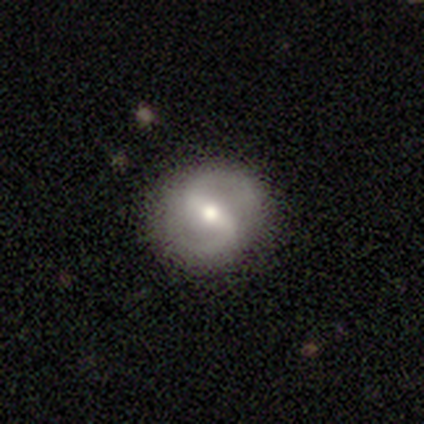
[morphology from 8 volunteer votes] A featured or disk galaxy (88%) with a weak bar (57%), 2 (100%) loose (50%) spiral arms (86%) and a moderate central bulge (86%).

Vote fractions:
- Smooth or featured? featured or disk: 88% / star or artifact: 12% / smooth: 0%
- Edge-on disk? no: 100% / yes: 0%
- Bar? weak: 57% / strong: 29% / no: 14%
- Spiral arms? yes: 86% / no: 14%
- Spiral winding? loose: 50% / tight: 33% / medium: 17%
- Spiral arm count? 2: 100% / 1: 0% / 3: 0% / 4: 0% / more than 4: 0% / can't tell: 0%
- Bulge size? moderate: 86% / small: 14% / dominant: 0% / large: 0% / none: 0%
- Merging? none: 100% / minor disturbance: 0% / major disturbance: 0% / merger: 0%